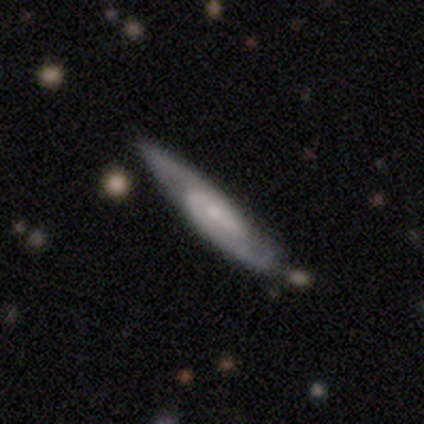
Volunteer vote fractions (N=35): Smooth or featured?
  - featured or disk: 83% *
  - smooth: 14%
  - star or artifact: 3%
Edge-on disk?
  - no: 62% *
  - yes: 38%
Bar?
  - no: 50% *
  - strong: 28%
  - weak: 22%
Spiral arms?
  - yes: 89% *
  - no: 11%
Spiral winding?
  - medium: 50% *
  - tight: 38%
  - loose: 12%
Spiral arm count?
  - 2: 94% *
  - 1: 6%
  - 3: 0%
  - 4: 0%
  - more than 4: 0%
  - can't tell: 0%
Bulge size?
  - small: 67% *
  - none: 22%
  - moderate: 11%
  - dominant: 0%
  - large: 0%
Merging?
  - none: 79% *
  - minor disturbance: 12%
  - major disturbance: 9%
  - merger: 0%